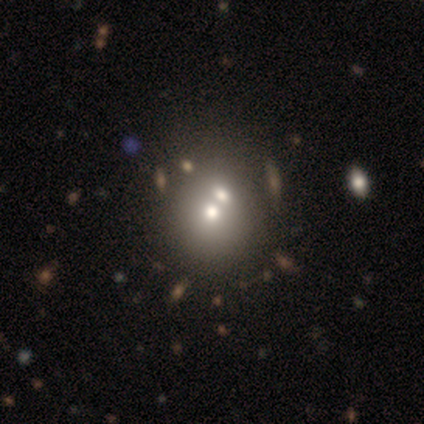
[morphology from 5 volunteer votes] A smooth galaxy with no disk features (80%) that is round (75%).

Vote fractions:
- Smooth or featured? smooth: 80% / featured or disk: 20% / star or artifact: 0%
- How rounded? round: 75% / in between: 25% / cigar-shaped: 0%
- Merging? none: 60% / merger: 40% / minor disturbance: 0% / major disturbance: 0%